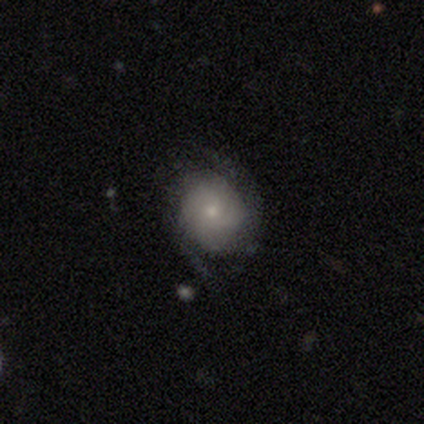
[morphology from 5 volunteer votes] smooth-or-featured: featured or disk: 60% | smooth: 20% | star or artifact: 20%
  disk-edge-on: no: 100% | yes: 0%
    bar: no: 100% | strong: 0% | weak: 0%
    has-spiral-arms: yes: 67% | no: 33%
      spiral-winding: medium: 50% (tied) | loose: 50% (tied) | tight: 0%
      spiral-arm-count: 2: 100% | 1: 0% | 3: 0% | 4: 0% | more than 4: 0% | can't tell: 0%
    bulge-size: small: 100% | dominant: 0% | large: 0% | moderate: 0% | none: 0%
  merging: none: 75% | major disturbance: 25% | minor disturbance: 0% | merger: 0%